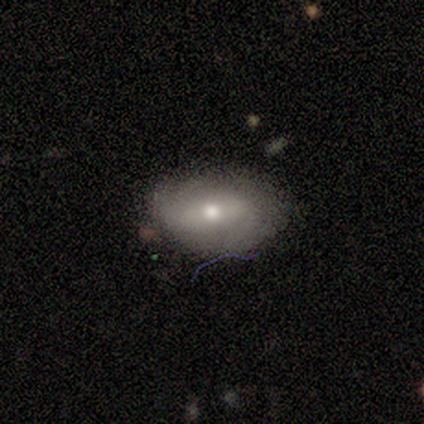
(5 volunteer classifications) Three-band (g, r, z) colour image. It shows a smooth galaxy with no disk features (60%) that is in between round and cigar-shaped (100%). Merging: none (80%).